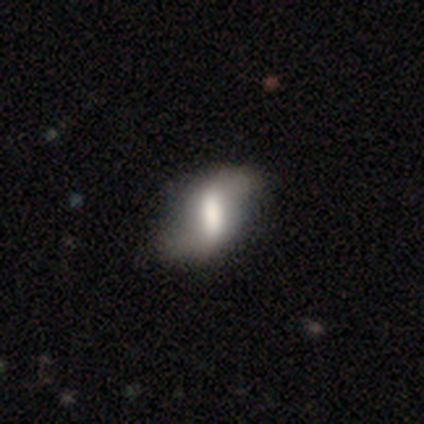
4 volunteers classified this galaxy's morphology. A smooth galaxy with no disk features (50%, tied with featured or disk) that is in between round and cigar-shaped (100%). Merging: none (100%).